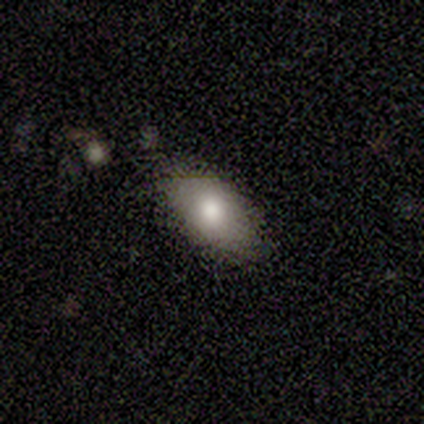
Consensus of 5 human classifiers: Overall: smooth (100%). How rounded: in between (80%). Merging: none (80%).